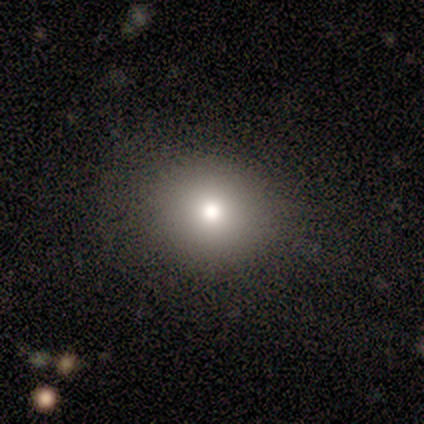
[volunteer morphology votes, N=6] smooth 100%, featured or disk 0%, star or artifact 0%. Down the decision tree: how rounded — round (67%); merging — none (100%).